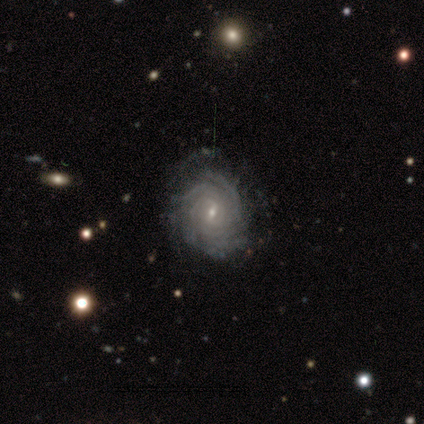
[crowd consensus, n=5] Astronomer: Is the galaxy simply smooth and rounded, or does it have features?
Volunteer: featured or disk — 80%.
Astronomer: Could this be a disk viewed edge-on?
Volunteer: no — 100%.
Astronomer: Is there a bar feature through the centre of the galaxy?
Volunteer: weak — 50%, tied with no at 50%.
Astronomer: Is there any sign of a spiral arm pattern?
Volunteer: yes — 100%.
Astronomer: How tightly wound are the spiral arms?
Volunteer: tight — 100%.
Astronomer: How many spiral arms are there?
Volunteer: more than 4 — 75%.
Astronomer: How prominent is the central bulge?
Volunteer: small — 100%.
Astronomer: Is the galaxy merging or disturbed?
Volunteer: none — 80%.